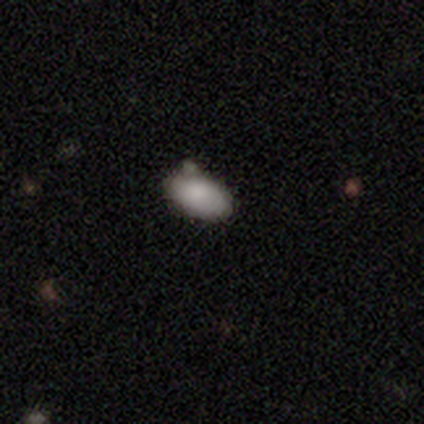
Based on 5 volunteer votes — Smooth or featured?
  - smooth: 80% *
  - star or artifact: 20%
  - featured or disk: 0%
How rounded?
  - in between: 100% *
  - round: 0%
  - cigar-shaped: 0%
Merging?
  - none: 75% *
  - merger: 25%
  - minor disturbance: 0%
  - major disturbance: 0%